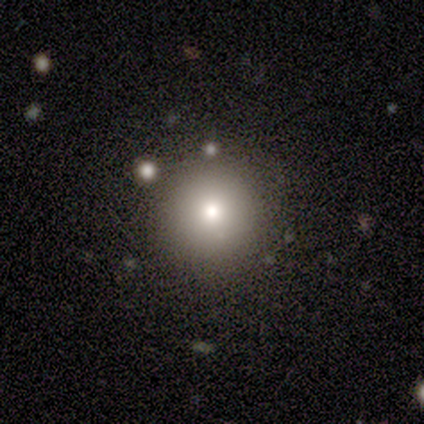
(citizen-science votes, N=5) Smooth or featured? smooth (80%)
How rounded? round (100%)
Merging? none (100%)